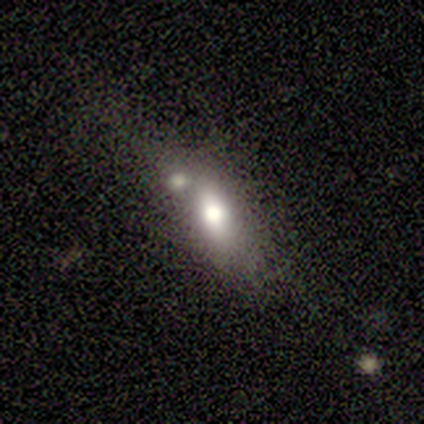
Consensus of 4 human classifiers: Smooth or featured? 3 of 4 (75%) said smooth. How rounded? 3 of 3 (100%) said in between. Merging? 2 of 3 (67%) said minor disturbance.